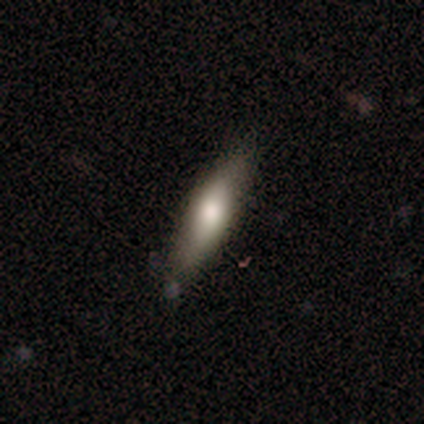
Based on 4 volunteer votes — A smooth galaxy with no disk features (75%) that is in between round and cigar-shaped (67%). Merging: none (75%).